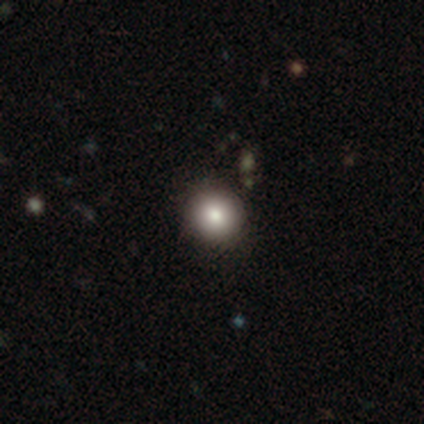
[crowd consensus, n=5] Smooth or featured: smooth — 80% (featured or disk — 20%)
How rounded: round — 75% (in between — 25%)
Merging: none — 80% (minor disturbance — 20%)